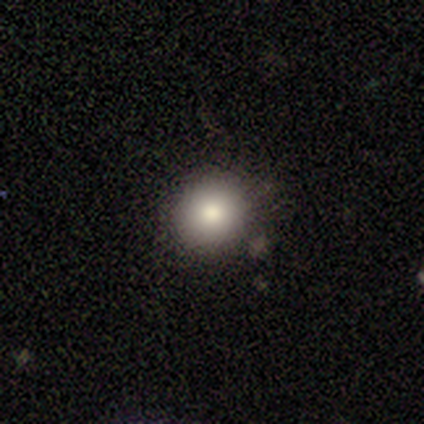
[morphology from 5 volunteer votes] type=smooth (60%); roundness=round (100%); merging=none (80%).